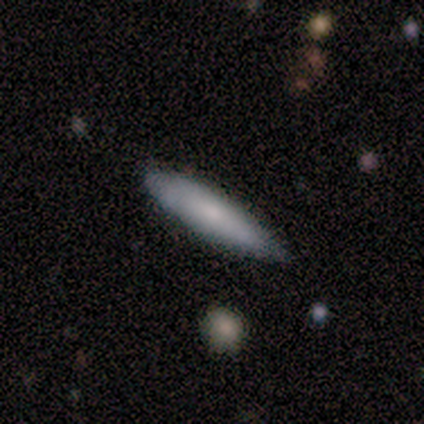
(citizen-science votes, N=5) A smooth galaxy with no disk features (80%) that is cigar-shaped (75%). Merging: minor disturbance (60%).